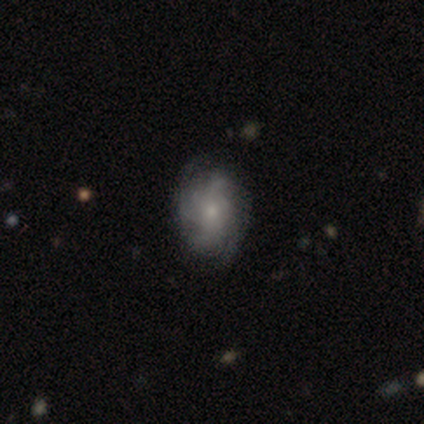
Morphology: type=featured or disk (78%); edge-on=no (100%); bar=no (71%); spiral arms=yes (94%); winding=tight (38%); arm count=can't tell (41%); bulge=small (55%); merging=none (55%).